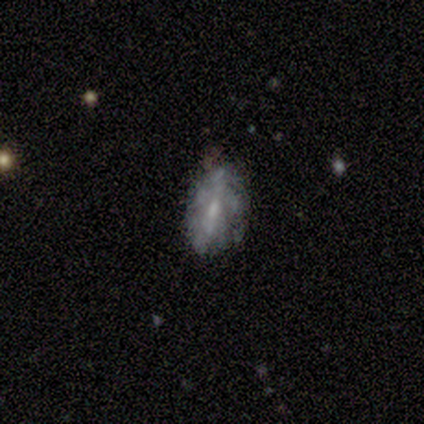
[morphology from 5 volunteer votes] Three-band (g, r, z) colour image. It shows a featured or disk galaxy (60%) with no bar (67%), no spiral arms (67%) and no central bulge (67%). Merging: none (100%).